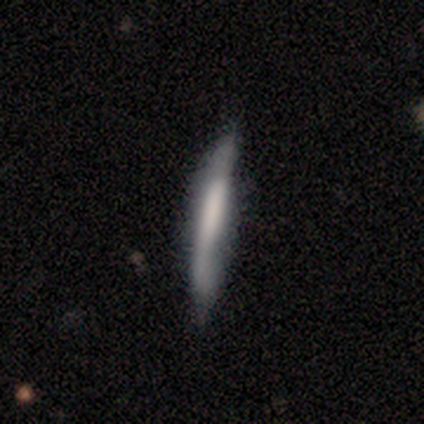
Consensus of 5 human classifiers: A smooth galaxy with no disk features (60%) that is cigar-shaped (100%).

Vote fractions:
- Smooth or featured? smooth: 60% / featured or disk: 40% / star or artifact: 0%
- How rounded? cigar-shaped: 100% / round: 0% / in between: 0%
- Merging? none: 100% / minor disturbance: 0% / major disturbance: 0% / merger: 0%